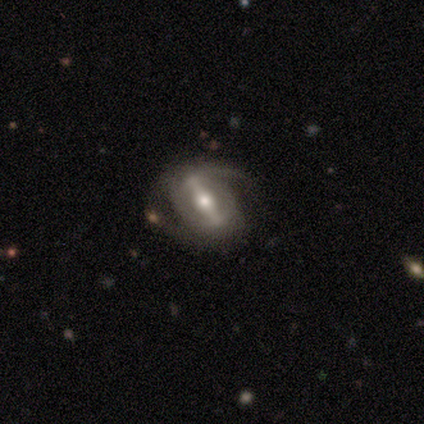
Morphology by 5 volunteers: smooth-or-featured: featured or disk: 60% | smooth: 40% | star or artifact: 0%
  disk-edge-on: no: 100% | yes: 0%
    bar: strong: 100% | weak: 0% | no: 0%
    has-spiral-arms: yes: 100% | no: 0%
      spiral-winding: medium: 67% | loose: 33% | tight: 0%
      spiral-arm-count: 2: 100% | 1: 0% | 3: 0% | 4: 0% | more than 4: 0% | can't tell: 0%
    bulge-size: moderate: 67% | small: 33% | dominant: 0% | large: 0% | none: 0%
  merging: none: 60% | minor disturbance: 20% | major disturbance: 20% | merger: 0%